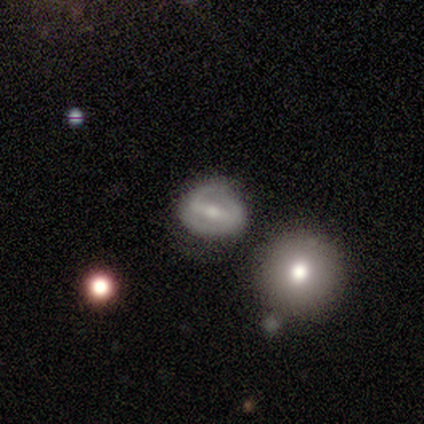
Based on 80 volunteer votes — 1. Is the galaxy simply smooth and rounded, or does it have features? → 66% featured or disk, 30% smooth, 4% star or artifact.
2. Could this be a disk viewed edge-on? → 98% no, 2% yes.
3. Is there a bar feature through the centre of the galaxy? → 62% strong, 35% weak, 4% no.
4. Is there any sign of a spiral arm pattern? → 77% yes, 23% no.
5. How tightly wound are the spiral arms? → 48% tight, 32% medium, 20% loose.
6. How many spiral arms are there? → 65% 2, 25% can't tell, 10% 1, 0% 3, 0% 4, 0% more than 4.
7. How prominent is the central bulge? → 60% small, 35% moderate, 4% none, 2% large, 0% dominant.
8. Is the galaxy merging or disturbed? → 40% none, 18% minor disturbance, 12% merger, 3% major disturbance.